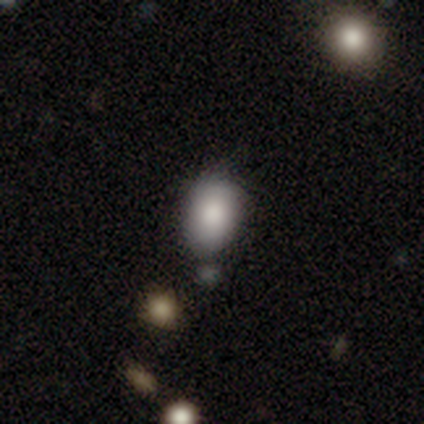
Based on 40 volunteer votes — Smooth or featured? smooth (82%)
How rounded? in between (79%)
Merging? none (65%)